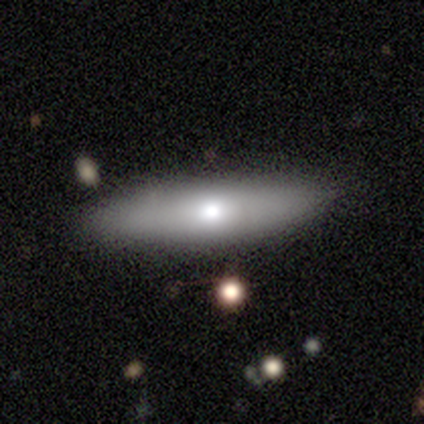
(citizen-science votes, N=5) Smooth or featured? smooth (60%)
How rounded? cigar-shaped (100%)
Merging? none (80%)